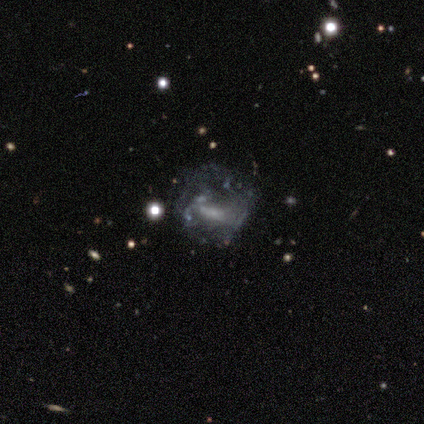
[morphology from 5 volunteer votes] smooth-or-featured: featured or disk: 100% | smooth: 0% | star or artifact: 0%
  disk-edge-on: no: 100% | yes: 0%
    bar: strong: 40% (tied) | no: 40% (tied) | weak: 20%
    has-spiral-arms: no: 80% | yes: 20%
    bulge-size: small: 60% | moderate: 40% | dominant: 0% | large: 0% | none: 0%
  merging: minor disturbance: 40% (tied) | major disturbance: 40% (tied) | none: 20% | merger: 0%